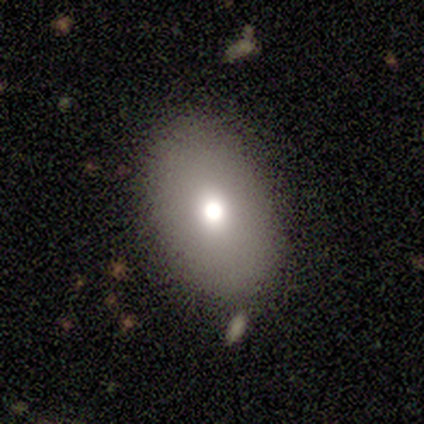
smooth_or_featured: smooth (p=0.67) [alt: featured or disk p=0.17]
how_rounded: in between (p=1.00)
merging: none (p=1.00)